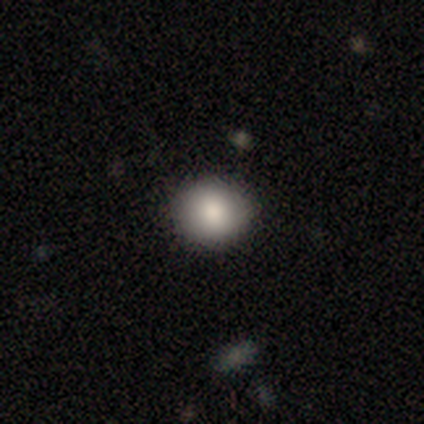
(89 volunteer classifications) This is clearly a smooth galaxy (88%). How rounded: clearly round (92%). Merging: clearly none (87%).